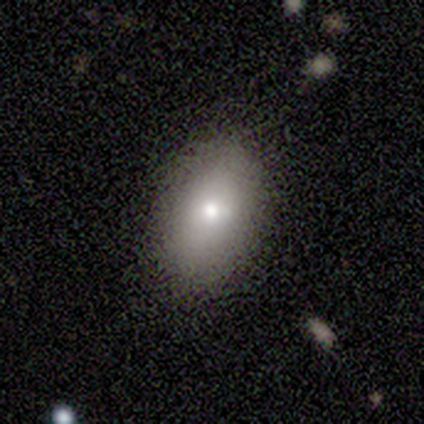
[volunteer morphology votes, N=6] Smooth or featured? 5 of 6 (83%) said smooth. How rounded? 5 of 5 (100%) said in between. Merging? 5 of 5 (100%) said none.